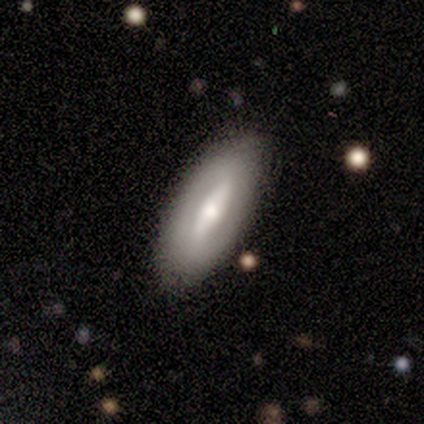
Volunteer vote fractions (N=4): This appears to be a featured or disk galaxy (100%) with a strong bar (50%), no spiral arms (100%) and a moderate central bulge (50%, tied with small). Merging: none (100%).